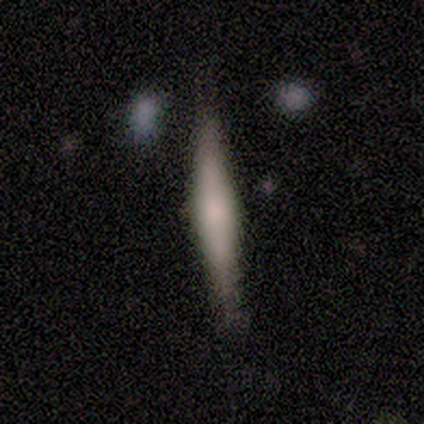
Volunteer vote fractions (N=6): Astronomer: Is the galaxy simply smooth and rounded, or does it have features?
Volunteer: featured or disk — 100%.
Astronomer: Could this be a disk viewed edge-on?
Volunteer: yes — 100%.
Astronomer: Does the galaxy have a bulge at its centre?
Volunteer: rounded — 67%.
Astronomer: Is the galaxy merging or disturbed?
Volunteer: none — 100%.